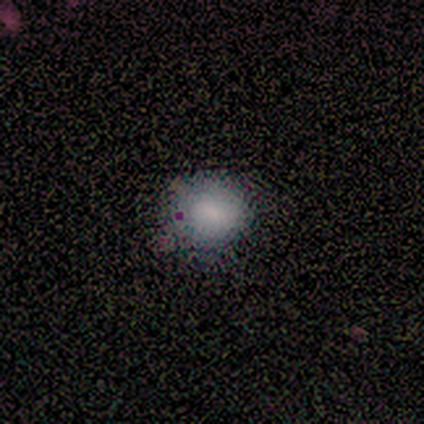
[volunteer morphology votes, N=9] type=smooth (56%); roundness=in between (60%); merging=none (60%).